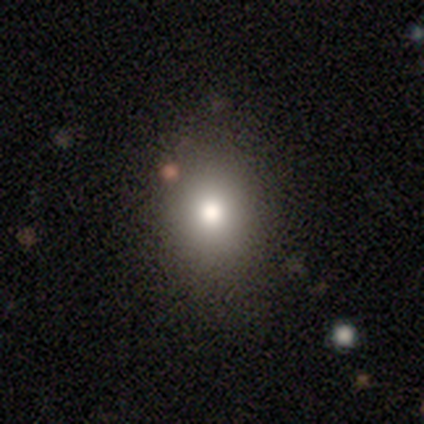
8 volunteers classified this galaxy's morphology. Smooth or featured? smooth (75%)
How rounded? round (67%)
Merging? none (86%)